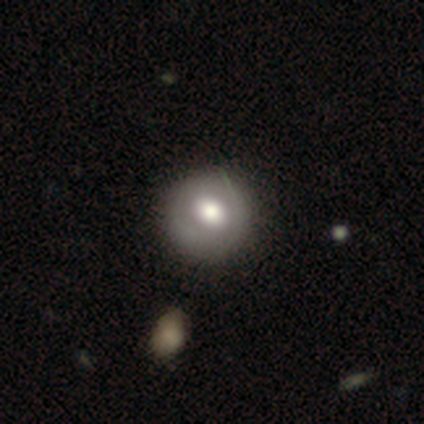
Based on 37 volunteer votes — Volunteers were most divided on "smooth or featured": smooth: 62%, featured or disk: 35%, star or artifact: 3%. More confident: how rounded — round (91%); merging — none (61%).